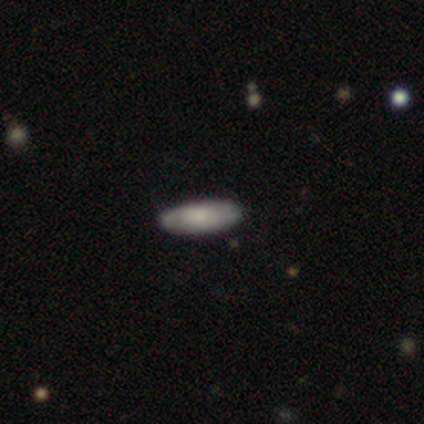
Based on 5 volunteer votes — Morphology: type=smooth (80%); roundness=in between (50%, tied with cigar-shaped); merging=none (80%).